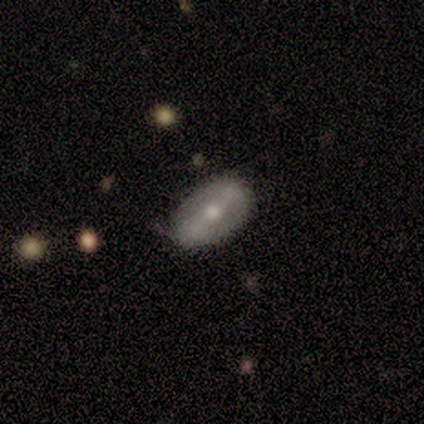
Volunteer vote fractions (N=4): Smooth or featured: smooth — 50% (tied with featured or disk — 50%)
How rounded: in between — 100%
Merging: none — 75% (minor disturbance — 25%)